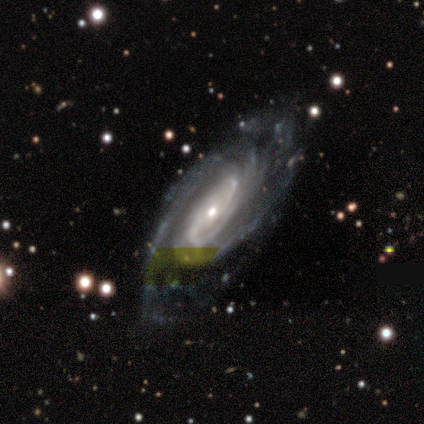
Smooth or featured?
  - featured or disk: 100% *
  - smooth: 0%
  - star or artifact: 0%
Edge-on disk?
  - no: 83% *
  - yes: 17%
Bar?
  - no: 60% *
  - weak: 40%
  - strong: 0%
Spiral arms?
  - yes: 100% *
  - no: 0%
Spiral winding?
  - tight: 60% *
  - medium: 40%
  - loose: 0%
Spiral arm count?
  - 2: 60% *
  - more than 4: 20%
  - can't tell: 20%
  - 1: 0%
  - 3: 0%
  - 4: 0%
Bulge size?
  - small: 80% *
  - moderate: 20%
  - dominant: 0%
  - large: 0%
  - none: 0%
Merging?
  - none: 83% *
  - minor disturbance: 17%
  - major disturbance: 0%
  - merger: 0%